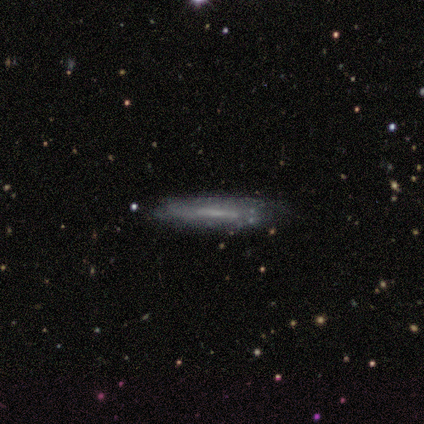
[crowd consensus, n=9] This is likely a featured or disk galaxy (67%). It is likely viewed edge-on (67%). Edge-on bulge: clearly none (100%). Merging: likely none (78%).